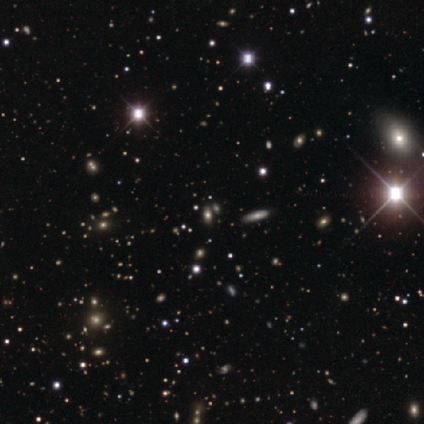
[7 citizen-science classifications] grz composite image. It shows a star or artifact, not a galaxy (71%).